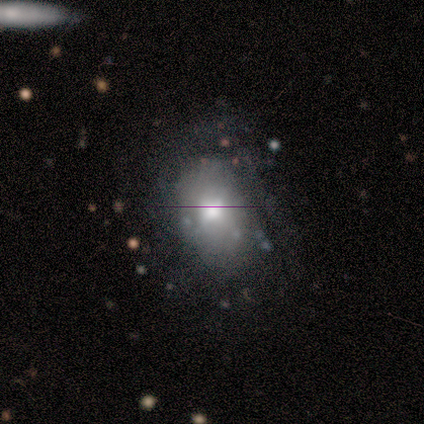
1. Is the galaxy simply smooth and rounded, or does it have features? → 60% featured or disk, 30% smooth, 10% star or artifact.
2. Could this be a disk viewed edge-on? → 83% no, 17% yes.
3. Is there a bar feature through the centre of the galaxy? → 80% no, 20% weak, 0% strong.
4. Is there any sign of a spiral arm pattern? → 80% no, 20% yes.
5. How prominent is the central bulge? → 60% moderate, 20% large, 20% small, 0% dominant, 0% none.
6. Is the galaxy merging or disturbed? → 67% none, 22% minor disturbance, 11% major disturbance, 0% merger.